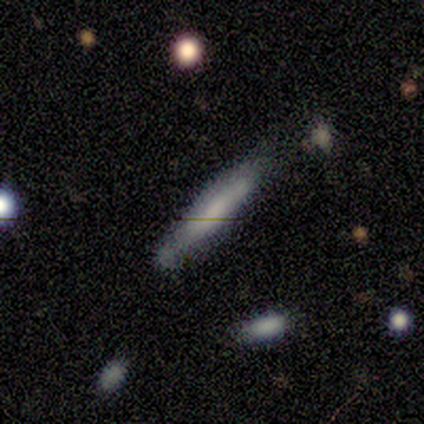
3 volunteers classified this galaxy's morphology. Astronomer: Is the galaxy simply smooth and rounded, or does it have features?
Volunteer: smooth — 100%.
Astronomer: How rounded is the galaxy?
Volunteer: cigar-shaped — 100%.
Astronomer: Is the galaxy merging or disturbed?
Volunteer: none — 100%.